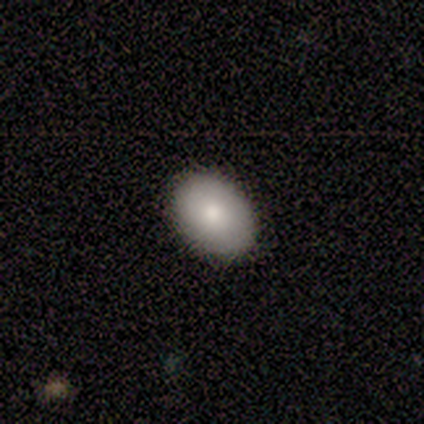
Smooth or featured: smooth — 88% (featured or disk — 12%)
How rounded: in between — 86% (round — 14%)
Merging: none — 88% (minor disturbance — 12%)